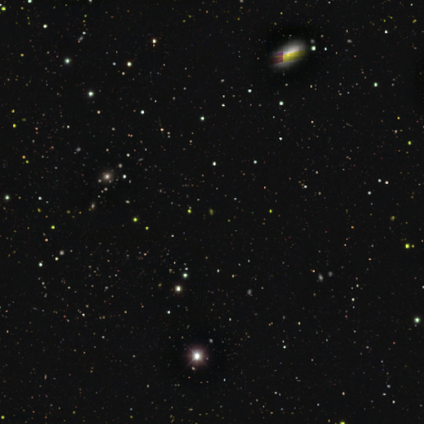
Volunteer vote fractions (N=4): Morphology: type=star or artifact (100%).